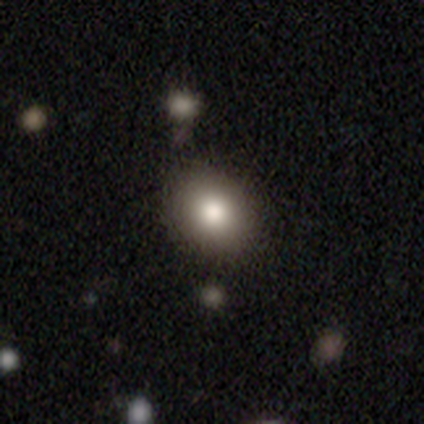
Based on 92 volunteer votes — Smooth or featured? 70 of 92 (76%) said smooth. How rounded? 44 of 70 (63%) said round. Merging? 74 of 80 (92%) said none.